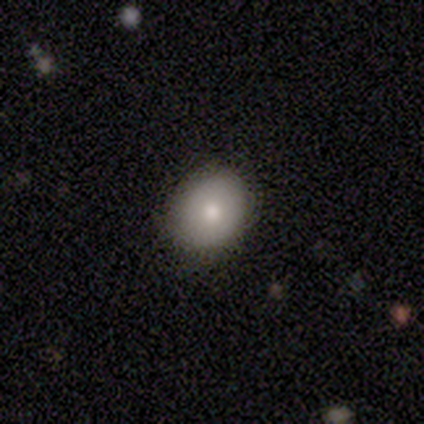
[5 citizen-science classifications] Morphology: type=smooth (100%); roundness=in between (60%); merging=none (60%).